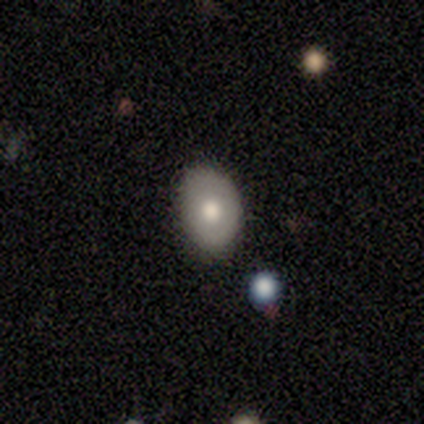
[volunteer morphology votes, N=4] A smooth galaxy with no disk features (50%) that is in between round and cigar-shaped (100%). Merging: none (100%).